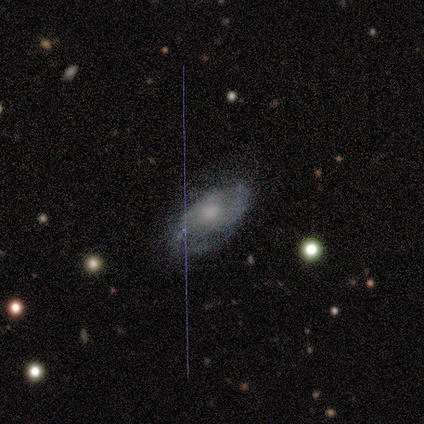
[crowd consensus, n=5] Volunteers were most divided on "merging" (2-way tie): none: 50%, minor disturbance: 50%, major disturbance: 0%, merger: 0%. More confident: edge-on disk — no (100%); spiral winding — medium (100%); spiral arm count — can't tell (100%); bar — no (67%); spiral arms — yes (67%); bulge size — moderate (67%); smooth or featured — featured or disk (60%).